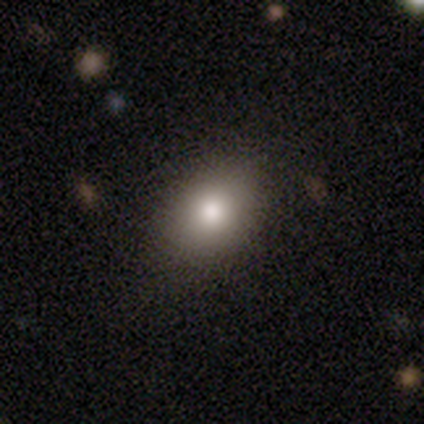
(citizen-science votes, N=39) Overall: smooth (77%). How rounded: in between (77%). Merging: none (77%).